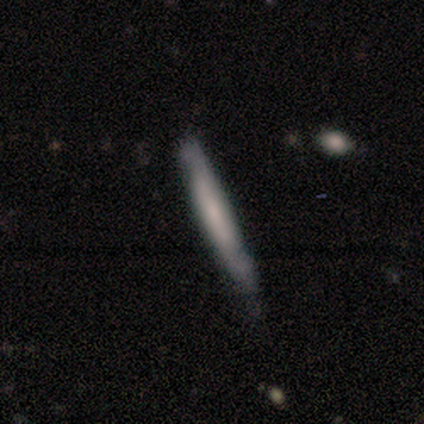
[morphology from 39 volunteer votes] Smooth or featured: smooth — 59% (featured or disk — 36%)
How rounded: cigar-shaped — 100%
Merging: none — 76% (minor disturbance — 16%)